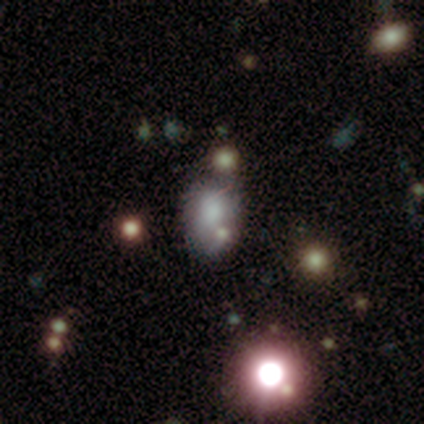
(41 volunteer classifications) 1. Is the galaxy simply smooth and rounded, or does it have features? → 54% smooth, 24% featured or disk, 22% star or artifact.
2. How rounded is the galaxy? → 59% in between, 36% round, 5% cigar-shaped.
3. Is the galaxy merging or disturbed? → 50% none, 25% minor disturbance, 22% merger, 3% major disturbance.